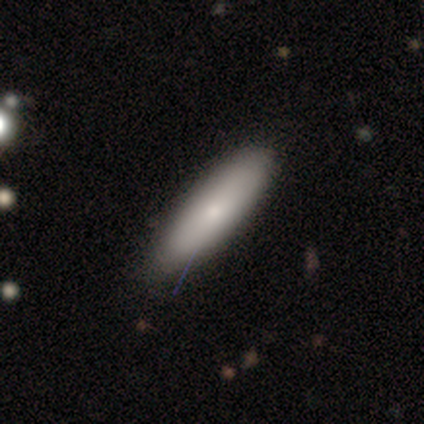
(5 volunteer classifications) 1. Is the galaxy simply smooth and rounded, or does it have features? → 100% smooth, 0% featured or disk, 0% star or artifact.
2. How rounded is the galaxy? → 60% cigar-shaped, 40% in between, 0% round.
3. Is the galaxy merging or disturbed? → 80% none, 20% minor disturbance, 0% major disturbance, 0% merger.